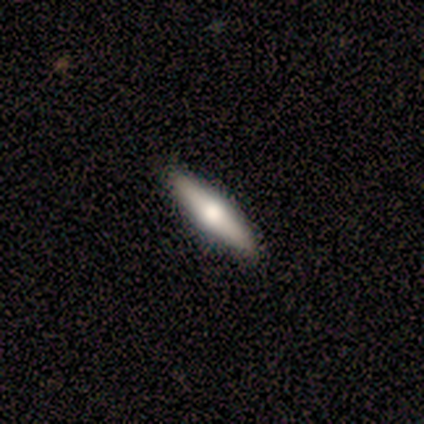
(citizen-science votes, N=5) smooth-or-featured: smooth: 80% | featured or disk: 20% | star or artifact: 0%
  how-rounded: cigar-shaped: 100% | round: 0% | in between: 0%
  merging: none: 80% | minor disturbance: 20% | major disturbance: 0% | merger: 0%